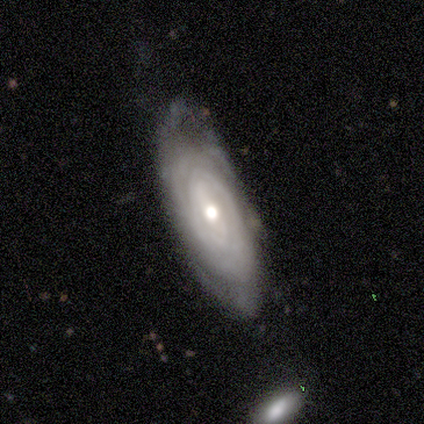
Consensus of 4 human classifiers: Volunteers were most divided on "bar": strong: 50%, weak: 25%, no: 25%. More confident: smooth or featured — featured or disk (100%); edge-on disk — no (100%); spiral arms — yes (100%); bulge size — moderate (100%); spiral winding — tight (75%); spiral arm count — can't tell (75%); merging — none (75%).